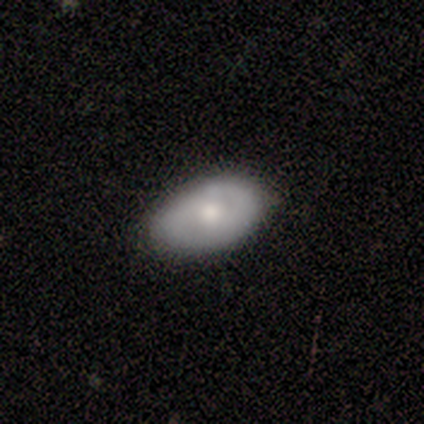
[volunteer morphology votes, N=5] type=smooth (60%); roundness=in between (100%); merging=minor disturbance (80%).